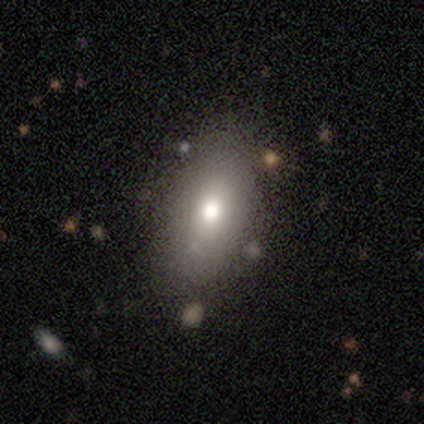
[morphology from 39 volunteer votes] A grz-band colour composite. It shows a smooth galaxy with no disk features (90%) that is in between round and cigar-shaped (83%). Merging: none (70%).